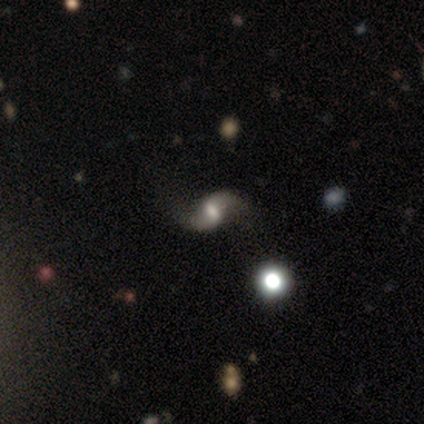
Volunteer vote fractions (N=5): Morphology: type=featured or disk (80%); edge-on=no (100%); bar=weak (75%); spiral arms=yes (100%); winding=loose (75%); arm count=2 (100%); bulge=large (50%, tied with moderate); merging=none (40%, tied with minor disturbance).